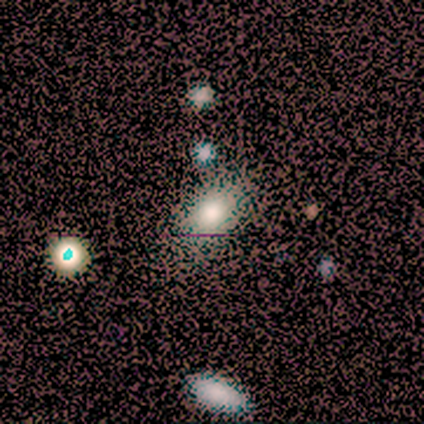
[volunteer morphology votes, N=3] Q: Smooth or featured?
A: featured or disk (67%); runner-up: smooth (33%)
Q: Edge-on disk?
A: yes (50%); tied with: no (50%)
Q: Edge-on bulge?
A: none (100%)
Q: Merging?
A: none (33%); tied with: minor disturbance (33%); major disturbance (33%)